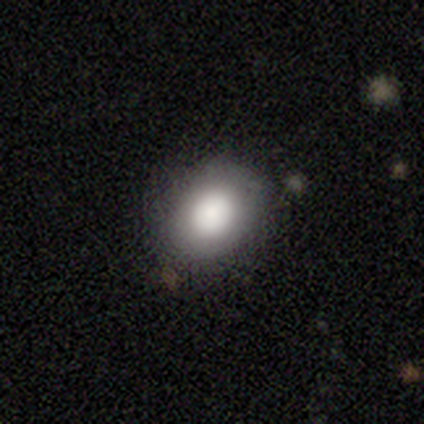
Overall: smooth (50%, tied with featured or disk). How rounded: round (50%, tied with in between). Merging: none (75%).